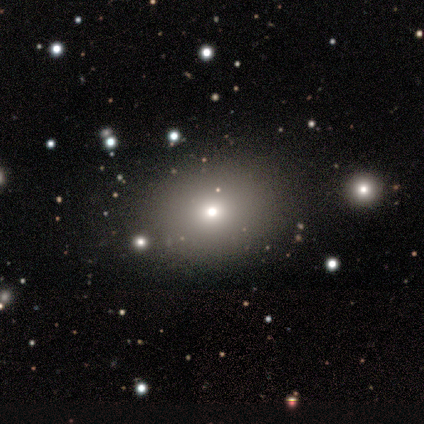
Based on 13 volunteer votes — smooth_or_featured: smooth (p=0.62) [alt: star or artifact p=0.23]
how_rounded: in between (p=0.75) [alt: round p=0.25]
merging: none (p=0.80) [alt: minor disturbance p=0.10]